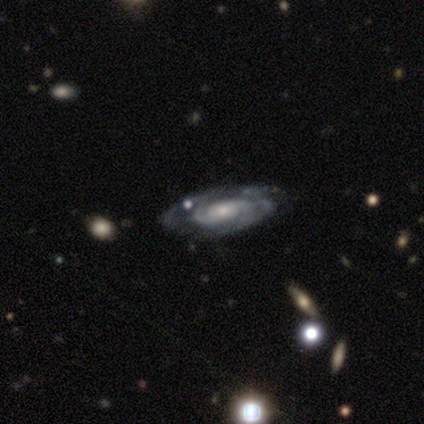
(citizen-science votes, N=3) featured or disk 100%, smooth 0%, star or artifact 0%. Down the decision tree: edge-on disk — no (67%); bar — no (100%); spiral arms — yes (100%); spiral arm count — can't tell (100%); spiral winding — medium (100%); bulge size — moderate (50%, tied with small); merging — none (33%, tied with minor disturbance and merger).